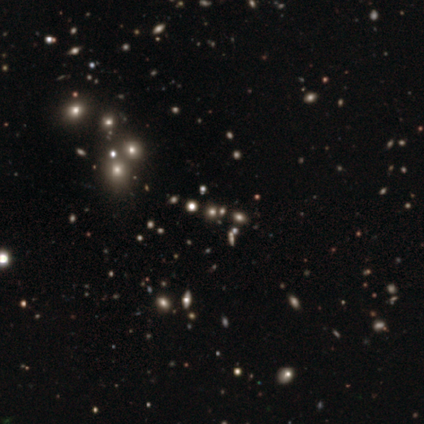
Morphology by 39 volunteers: type=star or artifact (77%).